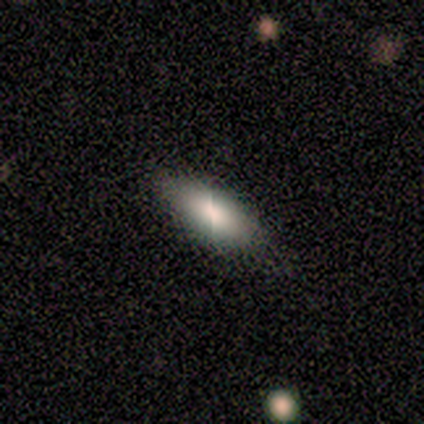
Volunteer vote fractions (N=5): Smooth or featured?
  - smooth: 100% *
  - featured or disk: 0%
  - star or artifact: 0%
How rounded?
  - in between: 60% *
  - cigar-shaped: 40%
  - round: 0%
Merging?
  - none: 100% *
  - minor disturbance: 0%
  - major disturbance: 0%
  - merger: 0%